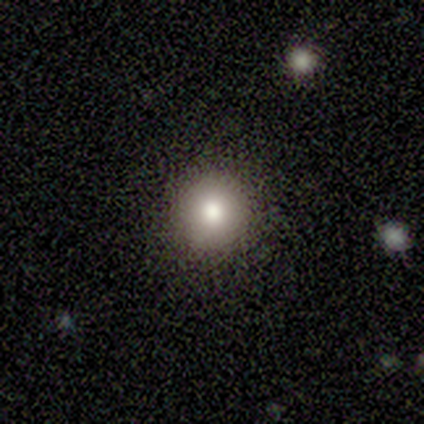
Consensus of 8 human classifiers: A smooth galaxy with no disk features (75%) that is round (83%).

Vote fractions:
- Smooth or featured? smooth: 75% / featured or disk: 12% / star or artifact: 12%
- How rounded? round: 83% / in between: 17% / cigar-shaped: 0%
- Merging? none: 71% / minor disturbance: 29% / major disturbance: 0% / merger: 0%